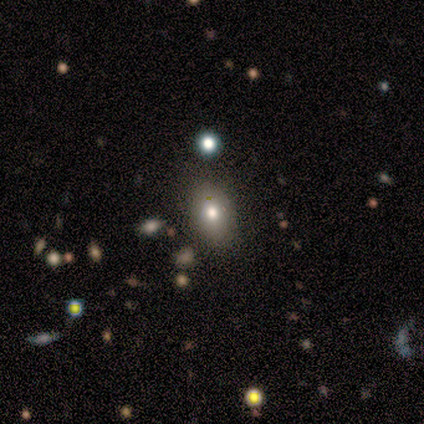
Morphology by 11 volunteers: A smooth galaxy with no disk features (64%) that is in between round and cigar-shaped (100%).

Vote fractions:
- Smooth or featured? smooth: 64% / featured or disk: 27% / star or artifact: 9%
- How rounded? in between: 100% / round: 0% / cigar-shaped: 0%
- Merging? none: 80% / minor disturbance: 10% / major disturbance: 10% / merger: 0%